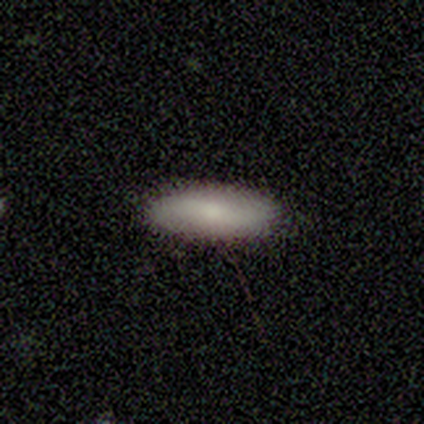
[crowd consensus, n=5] Smooth or featured?
  - smooth: 80% *
  - featured or disk: 20%
  - star or artifact: 0%
How rounded?
  - in between: 50% * (tied)
  - cigar-shaped: 50% * (tied)
  - round: 0%
Merging?
  - none: 100% *
  - minor disturbance: 0%
  - major disturbance: 0%
  - merger: 0%